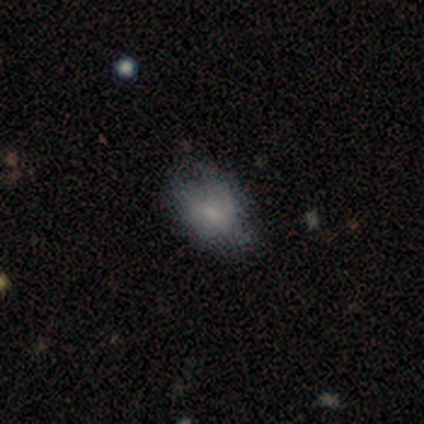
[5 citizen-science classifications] Smooth or featured: featured or disk — 60% (smooth — 20%)
Edge-on disk: no — 100%
Bar: weak — 67% (no — 33%)
Spiral arms: yes — 67% (no — 33%)
Spiral winding: medium — 100%
Spiral arm count: 2 — 50% (tied with can't tell — 50%)
Bulge size: moderate — 33% (tied with small — 33%; none — 33%)
Merging: none — 75% (merger — 25%)